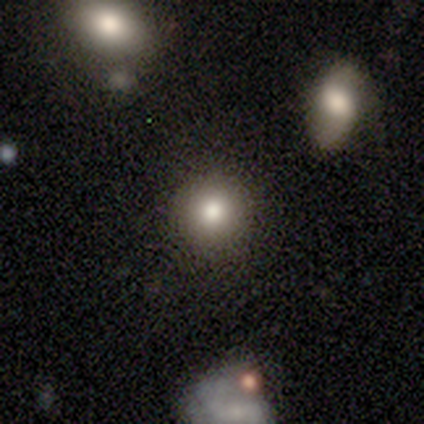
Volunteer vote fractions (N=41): Q: Smooth or featured?
A: smooth (68%); runner-up: featured or disk (20%)
Q: How rounded?
A: round (82%); runner-up: in between (18%)
Q: Merging?
A: none (86%); runner-up: minor disturbance (11%)